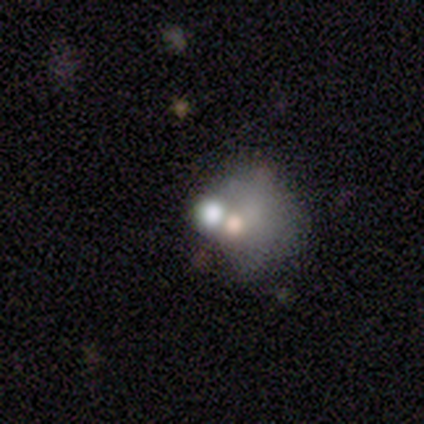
Volunteers were most divided on "merging" (2-way tie): major disturbance: 50%, merger: 50%, none: 0%, minor disturbance: 0%. More confident: how rounded — round (100%); smooth or featured — smooth (60%).